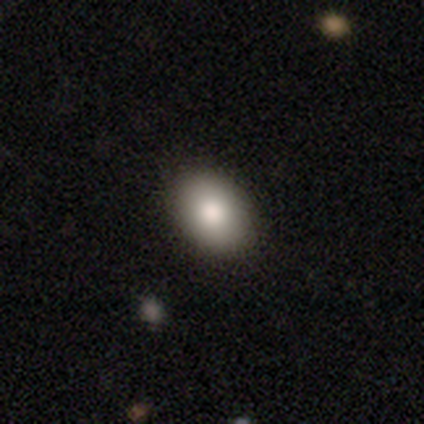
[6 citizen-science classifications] This appears to be a smooth galaxy with no disk features (83%) that is in between round and cigar-shaped (100%). Merging: none (100%).